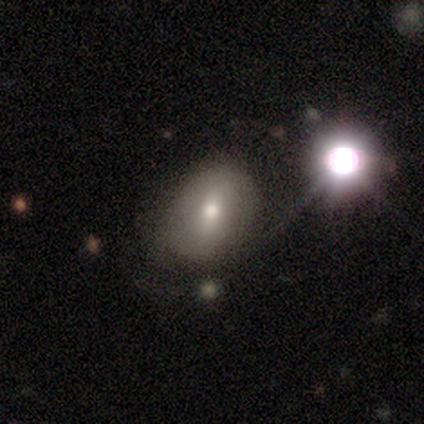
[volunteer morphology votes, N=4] type=featured or disk (50%); edge-on=no (100%); bar=strong (50%, tied with no); spiral arms=no (100%); bulge=large (50%, tied with small); merging=minor disturbance (67%).